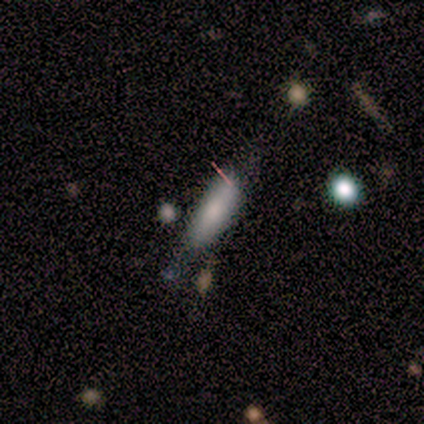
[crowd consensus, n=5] Morphology: type=smooth (100%); roundness=cigar-shaped (60%); merging=none (80%).